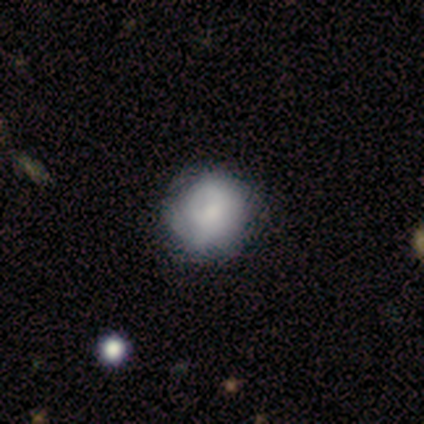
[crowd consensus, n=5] Overall: smooth (80%). How rounded: round (100%). Merging: none (100%).